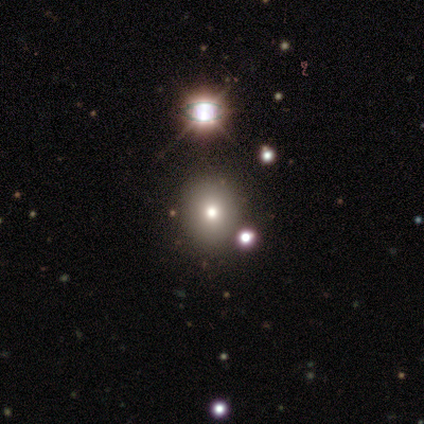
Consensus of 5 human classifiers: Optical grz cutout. It shows a smooth galaxy with no disk features (40%, tied with star or artifact) that is round (50%, tied with in between). Merging: none (33%, tied with minor disturbance and merger).